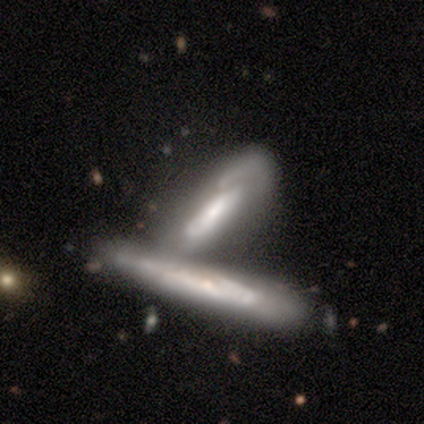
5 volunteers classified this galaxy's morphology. Smooth or featured? 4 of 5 (80%) said featured or disk. Edge-on disk? 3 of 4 (75%) said no. Bar? 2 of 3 (67%) said no. Spiral arms? 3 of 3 (100%) said yes. Spiral winding? 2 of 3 (67%) said medium. Spiral arm count? 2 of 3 (67%) said can't tell. Bulge size? 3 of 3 (100%) said moderate. Merging? 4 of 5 (80%) said merger.